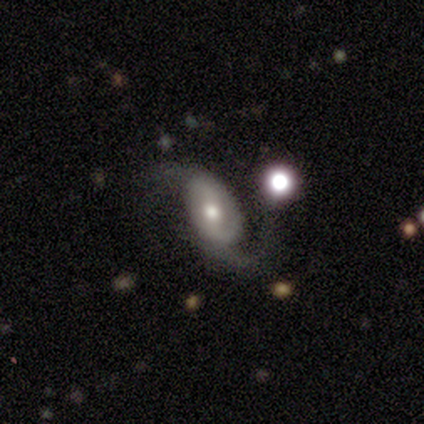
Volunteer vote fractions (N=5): featured or disk 100%, smooth 0%, star or artifact 0%. Down the decision tree: edge-on disk — no (80%); bar — weak (50%, tied with no); spiral arms — yes (100%); spiral arm count — 2 (75%); spiral winding — loose (75%); bulge size — moderate (50%); merging — none (60%).